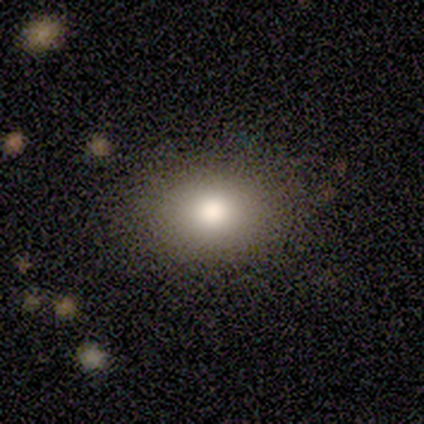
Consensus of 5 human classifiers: A smooth galaxy with no disk features (100%) that is in between round and cigar-shaped (60%). Merging: none (80%).